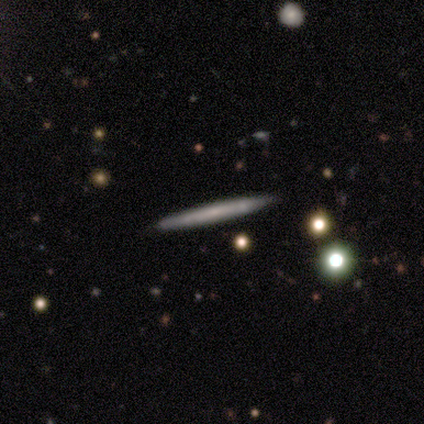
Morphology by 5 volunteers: smooth-or-featured: featured or disk: 80% | smooth: 20% | star or artifact: 0%
  disk-edge-on: yes: 75% | no: 25%
    edge-on-bulge: none: 100% | boxy: 0% | rounded: 0%
  merging: none: 60% | minor disturbance: 40% | major disturbance: 0% | merger: 0%